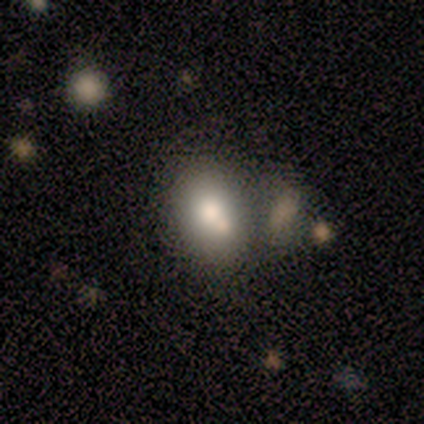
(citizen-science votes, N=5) smooth 60%, featured or disk 40%, star or artifact 0%. Down the decision tree: how rounded — in between (100%); merging — none (40%, tied with minor disturbance).